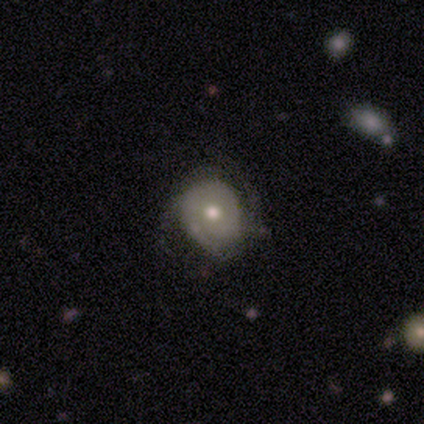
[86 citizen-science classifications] Q: Smooth or featured?
A: smooth (48%); tied with: featured or disk (48%)
Q: How rounded?
A: round (83%); runner-up: in between (17%)
Q: Merging?
A: none (55%); runner-up: minor disturbance (30%)